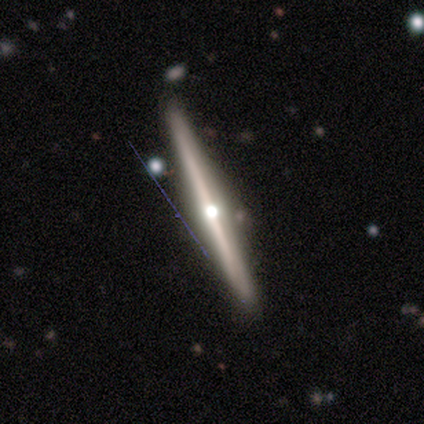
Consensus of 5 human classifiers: Smooth or featured?
  - featured or disk: 80% *
  - smooth: 20%
  - star or artifact: 0%
Edge-on disk?
  - yes: 100% *
  - no: 0%
Edge-on bulge?
  - rounded: 75% *
  - none: 25%
  - boxy: 0%
Merging?
  - none: 80% *
  - merger: 20%
  - minor disturbance: 0%
  - major disturbance: 0%